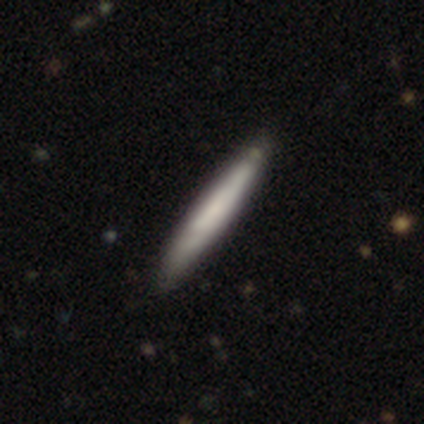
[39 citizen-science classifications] Q: Smooth or featured?
A: smooth (67%); runner-up: featured or disk (33%)
Q: How rounded?
A: cigar-shaped (96%); runner-up: in between (4%)
Q: Merging?
A: none (62%); runner-up: minor disturbance (13%)